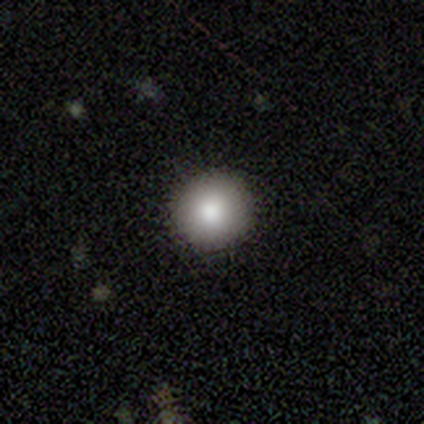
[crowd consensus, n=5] Morphology: type=smooth (80%); roundness=round (100%); merging=none (100%).